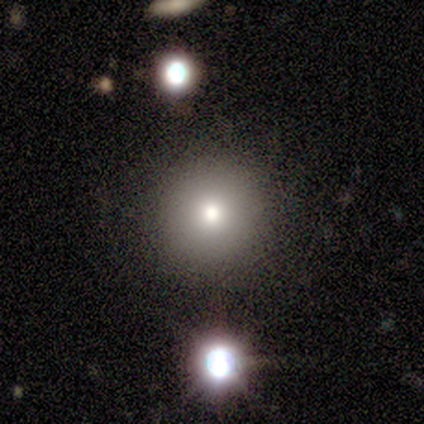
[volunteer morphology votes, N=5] smooth_or_featured: smooth (p=0.60) [alt: featured or disk p=0.40]
how_rounded: round (p=1.00)
merging: none (p=1.00)